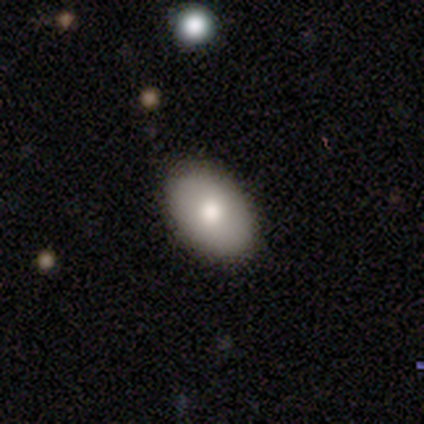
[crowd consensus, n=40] Smooth or featured? 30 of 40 (75%) said smooth. How rounded? 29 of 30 (97%) said in between. Merging? 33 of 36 (92%) said none.